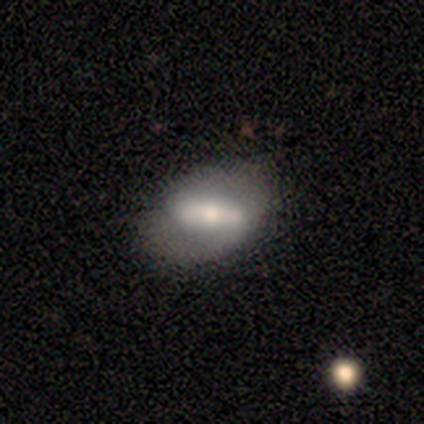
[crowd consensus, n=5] Morphology: type=featured or disk (60%); edge-on=no (100%); bar=strong (67%); spiral arms=yes (67%); winding=medium (100%); arm count=2 (100%); bulge=large (33%, tied with moderate and small); merging=none (80%).